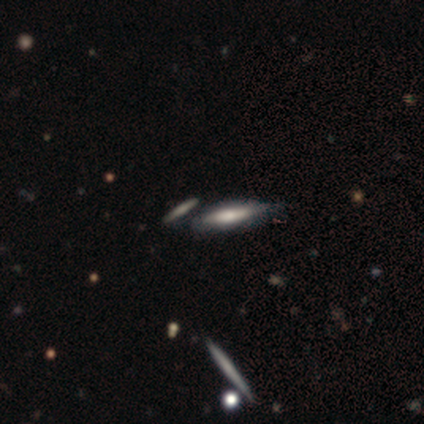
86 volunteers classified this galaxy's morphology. Q: Smooth or featured?
A: smooth (45%); tied with: featured or disk (45%)
Q: How rounded?
A: cigar-shaped (64%); runner-up: in between (36%)
Q: Merging?
A: none (65%); runner-up: minor disturbance (19%)